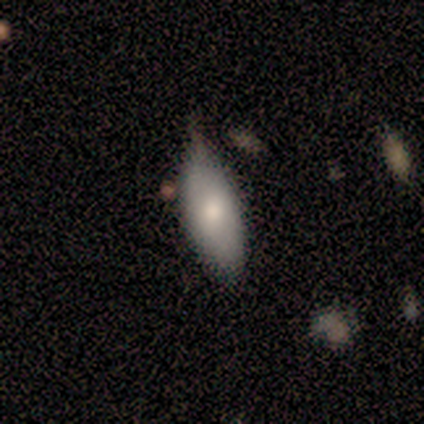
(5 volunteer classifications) smooth 80%, featured or disk 20%, star or artifact 0%. Down the decision tree: how rounded — in between (100%); merging — none (60%).